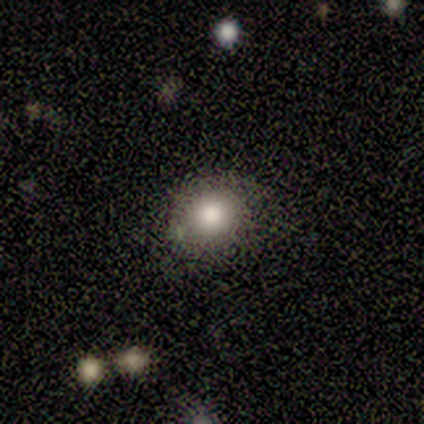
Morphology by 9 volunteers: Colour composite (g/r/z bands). It shows a smooth galaxy with no disk features (100%) that is round (78%). Merging: none (56%).